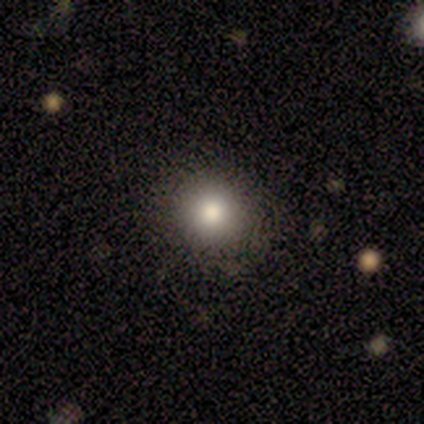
Smooth or featured: smooth — 80% (star or artifact — 20%)
How rounded: round — 75% (in between — 25%)
Merging: none — 94% (minor disturbance — 6%)